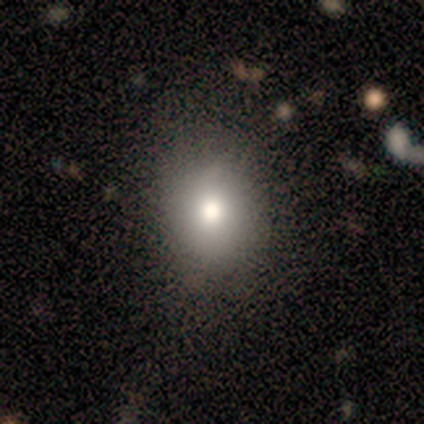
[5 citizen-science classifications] smooth 80%, featured or disk 20%, star or artifact 0%. Down the decision tree: how rounded — round (50%, tied with in between); merging — none (60%).